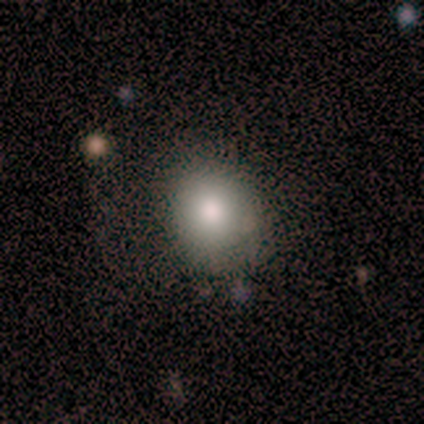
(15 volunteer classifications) Morphology: type=smooth (93%); roundness=round (57%); merging=none (71%).